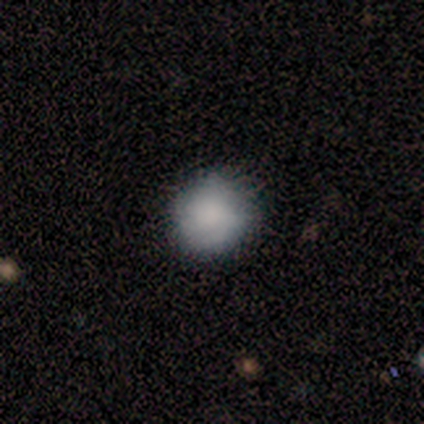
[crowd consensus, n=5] This appears to be a smooth galaxy with no disk features (40%, tied with star or artifact) that is round (50%, tied with in between). Merging: none (67%).